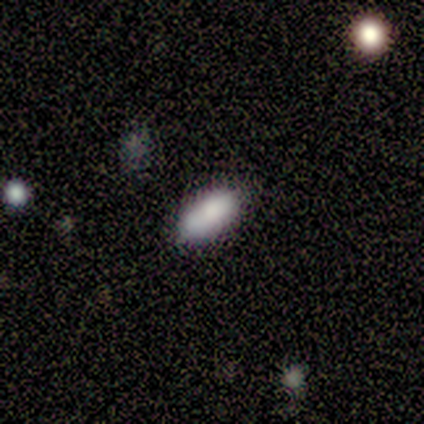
Smooth or featured? 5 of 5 (100%) said smooth. How rounded? 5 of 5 (100%) said in between. Merging? 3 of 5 (60%) said none.